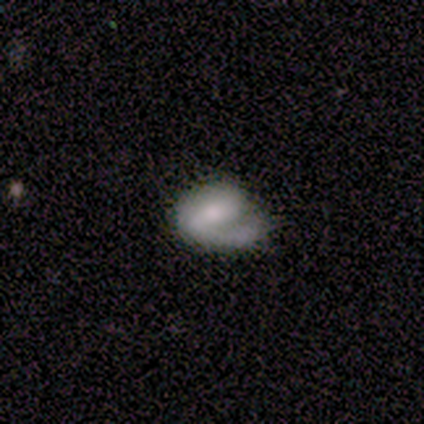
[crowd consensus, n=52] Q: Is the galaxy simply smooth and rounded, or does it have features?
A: featured or disk — 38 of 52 (73%).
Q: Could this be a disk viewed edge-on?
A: no — 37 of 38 (97%).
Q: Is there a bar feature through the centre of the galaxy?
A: weak — 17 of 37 (46%).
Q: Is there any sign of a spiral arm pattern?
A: yes — 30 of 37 (81%).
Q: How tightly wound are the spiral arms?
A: medium — 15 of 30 (50%).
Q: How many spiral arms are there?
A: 1 — 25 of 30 (83%).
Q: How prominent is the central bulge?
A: moderate — 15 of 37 (41%).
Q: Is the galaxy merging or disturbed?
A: none — 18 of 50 (36%).